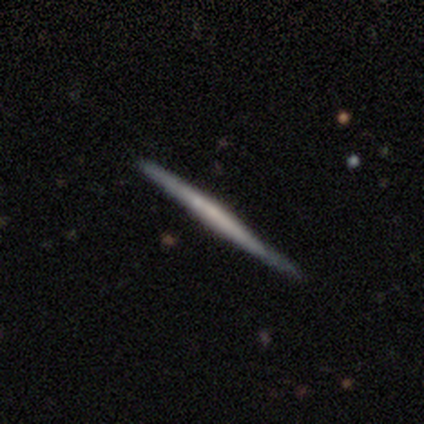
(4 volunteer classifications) A smooth galaxy with no disk features (50%, tied with featured or disk) that is in between round and cigar-shaped (50%, tied with cigar-shaped).

Vote fractions:
- Smooth or featured? smooth: 50% (tied) / featured or disk: 50% (tied) / star or artifact: 0%
- How rounded? in between: 50% (tied) / cigar-shaped: 50% (tied) / round: 0%
- Merging? none: 75% / minor disturbance: 25% / major disturbance: 0% / merger: 0%